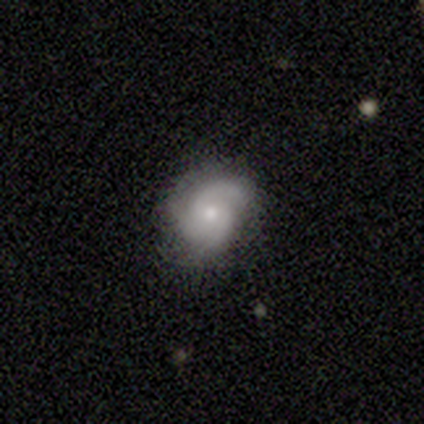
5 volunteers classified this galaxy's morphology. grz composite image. It shows a smooth galaxy with no disk features (40%, tied with featured or disk) that is in between round and cigar-shaped (100%). Merging: minor disturbance (75%).